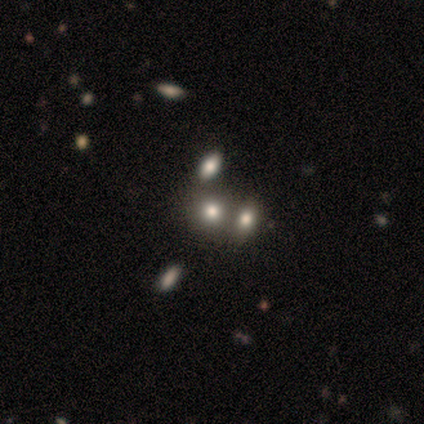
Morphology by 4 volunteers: This is possibly a smooth galaxy (50%). How rounded: possibly round (50%, tied with in between). Merging: marginally none (33%, tied with minor disturbance and major disturbance).